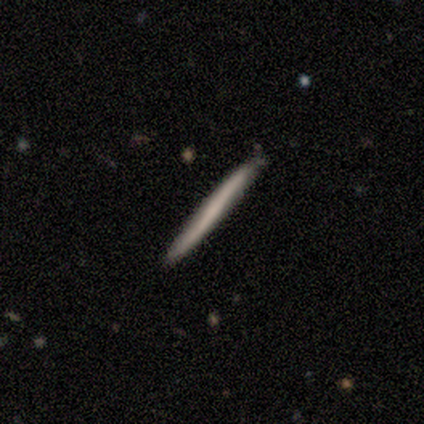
Smooth or featured?
  - featured or disk: 60% *
  - smooth: 40%
  - star or artifact: 0%
Edge-on disk?
  - yes: 67% *
  - no: 33%
Edge-on bulge?
  - none: 100% *
  - boxy: 0%
  - rounded: 0%
Merging?
  - none: 100% *
  - minor disturbance: 0%
  - major disturbance: 0%
  - merger: 0%